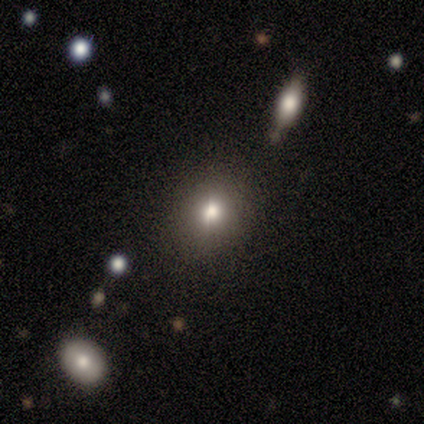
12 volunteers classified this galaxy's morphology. smooth_or_featured: smooth (p=0.42) [tied with: star or artifact p=0.42]
how_rounded: in between (p=0.60) [alt: round p=0.40]
merging: none (p=0.71) [alt: minor disturbance p=0.14]